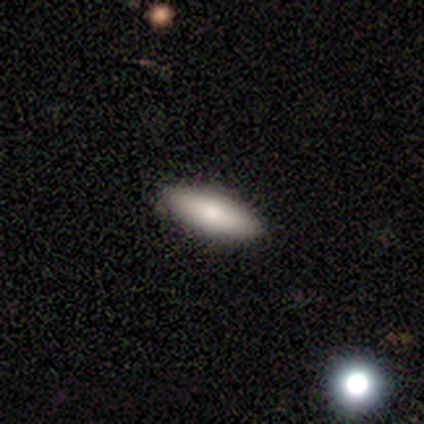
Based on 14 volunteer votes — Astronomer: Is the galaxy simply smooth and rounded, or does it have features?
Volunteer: smooth — 71%.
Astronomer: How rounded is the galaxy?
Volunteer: in between — 50%, tied with cigar-shaped at 50%.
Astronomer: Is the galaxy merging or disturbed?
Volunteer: none — 100%.